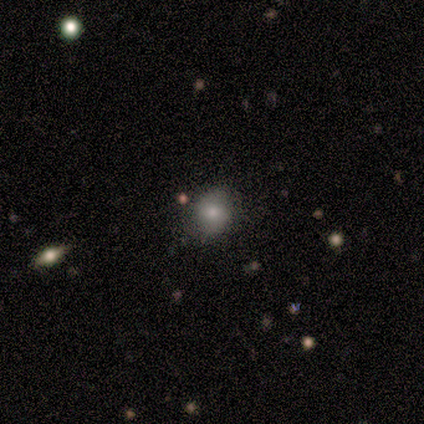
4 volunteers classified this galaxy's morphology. A smooth galaxy with no disk features (100%) that is round (100%). Merging: none (100%).